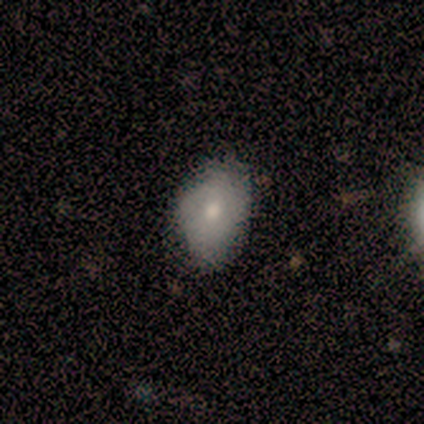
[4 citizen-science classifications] Q: Smooth or featured?
A: smooth (100%)
Q: How rounded?
A: in between (75%); runner-up: round (25%)
Q: Merging?
A: none (75%); runner-up: minor disturbance (25%)